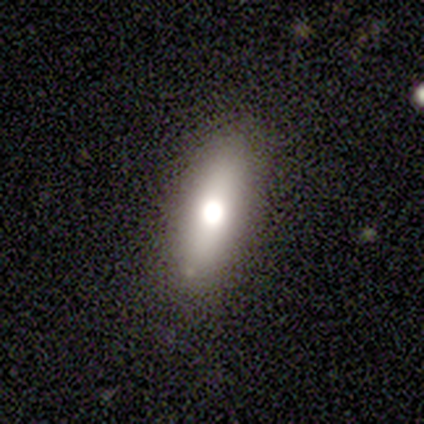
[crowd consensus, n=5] A smooth galaxy with no disk features (60%) that is in between round and cigar-shaped (67%).

Vote fractions:
- Smooth or featured? smooth: 60% / featured or disk: 20% / star or artifact: 20%
- How rounded? in between: 67% / cigar-shaped: 33% / round: 0%
- Merging? none: 100% / minor disturbance: 0% / major disturbance: 0% / merger: 0%